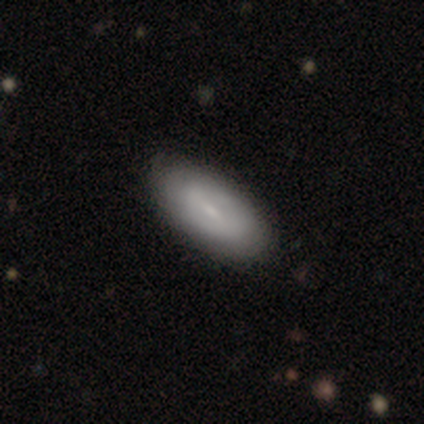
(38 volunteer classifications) Smooth or featured? featured or disk (53%)
Edge-on disk? no (100%)
Bar? weak (60%)
Spiral arms? no (65%)
Bulge size? small (75%)
Merging? none (68%)